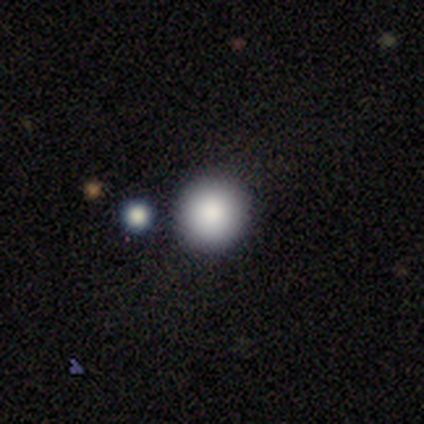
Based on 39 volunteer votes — Overall: smooth (87%). How rounded: round (91%). Merging: none (81%).